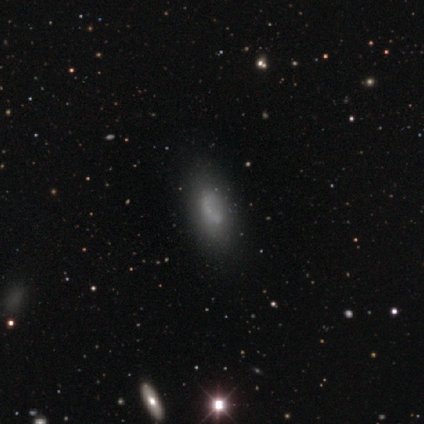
Overall: smooth (75%). How rounded: in between (100%). Merging: none (83%).